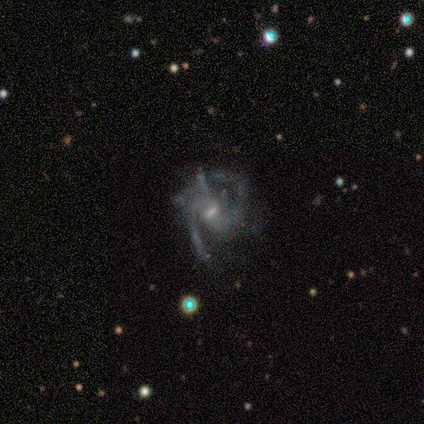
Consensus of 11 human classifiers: Q: Smooth or featured?
A: featured or disk (100%)
Q: Edge-on disk?
A: no (100%)
Q: Bar?
A: weak (55%); runner-up: strong (36%)
Q: Spiral arms?
A: yes (100%)
Q: Spiral winding?
A: medium (64%); runner-up: tight (18%)
Q: Spiral arm count?
A: 2 (55%); runner-up: 3 (36%)
Q: Bulge size?
A: small (82%); runner-up: moderate (18%)
Q: Merging?
A: major disturbance (45%); runner-up: none (27%)